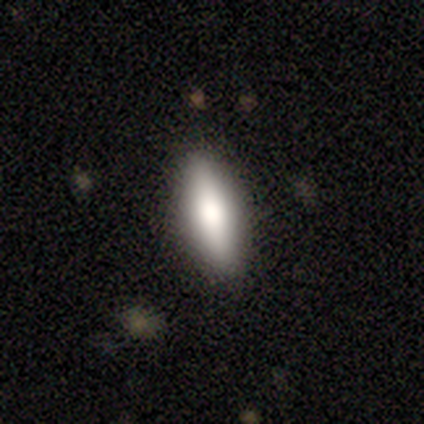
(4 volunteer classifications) This is likely a smooth galaxy (75%). How rounded: likely cigar-shaped (67%). Merging: clearly none (100%).